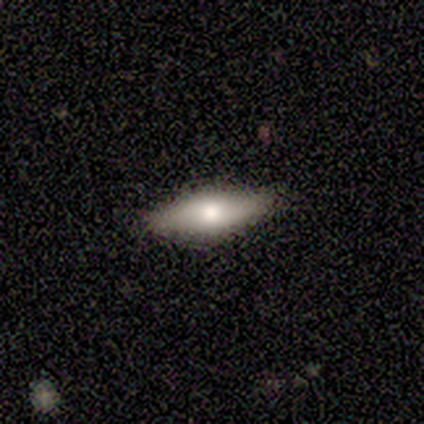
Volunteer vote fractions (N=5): Smooth or featured?
  - smooth: 60% *
  - featured or disk: 20%
  - star or artifact: 20%
How rounded?
  - cigar-shaped: 67% *
  - in between: 33%
  - round: 0%
Merging?
  - none: 100% *
  - minor disturbance: 0%
  - major disturbance: 0%
  - merger: 0%